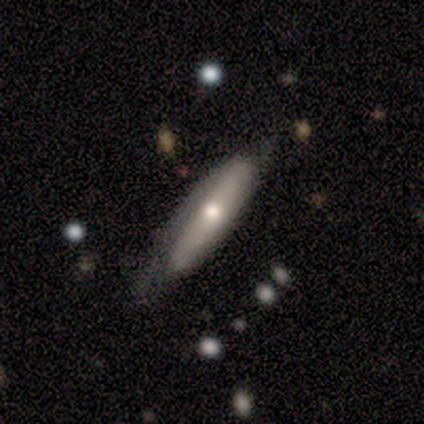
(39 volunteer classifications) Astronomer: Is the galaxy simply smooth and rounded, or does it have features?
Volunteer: smooth — 54% (runner-up: featured or disk, 38%).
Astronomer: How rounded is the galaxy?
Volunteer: cigar-shaped — 71%.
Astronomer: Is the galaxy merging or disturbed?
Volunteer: none — 58%.